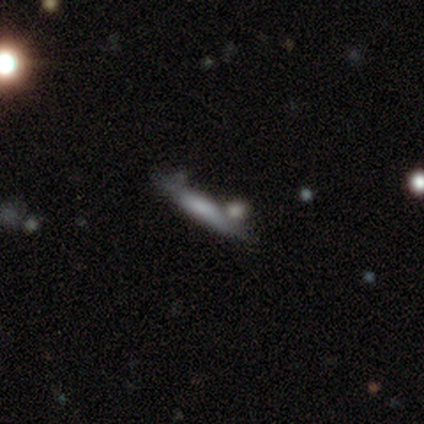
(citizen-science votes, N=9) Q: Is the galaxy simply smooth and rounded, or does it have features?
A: smooth — 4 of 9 (44%, tied with featured or disk).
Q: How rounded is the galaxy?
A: in between — 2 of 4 (50%, tied with cigar-shaped).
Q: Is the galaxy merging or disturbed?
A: none — 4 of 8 (50%).